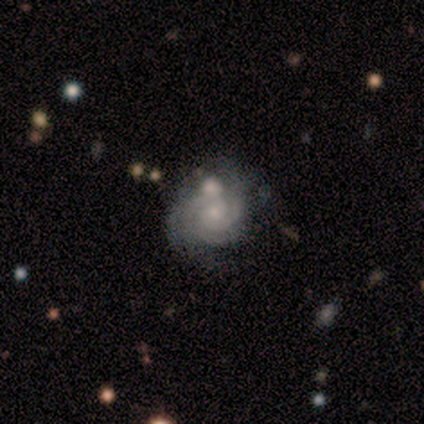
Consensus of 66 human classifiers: This is clearly a featured or disk galaxy (83%). It is clearly not viewed edge-on (100%). Bar: clearly no (84%). Spiral arm pattern: clearly yes (100%). Spiral arm count: marginally 2 (38%). Spiral winding: clearly tight (82%). Central bulge: likely small (75%). Merging: possibly none (51%).